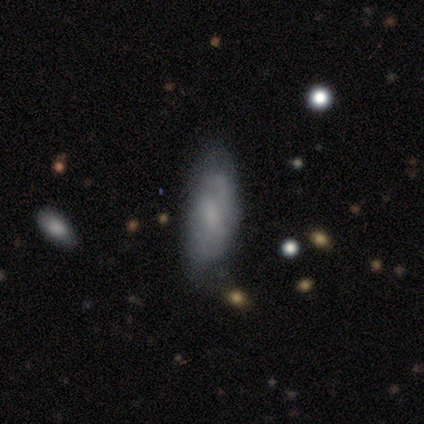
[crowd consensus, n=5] Smooth or featured? 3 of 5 (60%) said smooth. How rounded? 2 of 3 (67%) said cigar-shaped. Merging? 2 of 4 (50%) said none.